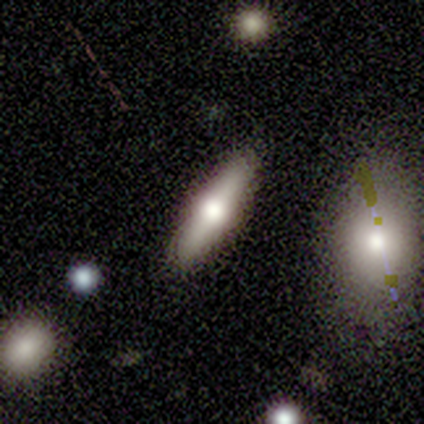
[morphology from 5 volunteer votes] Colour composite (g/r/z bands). It shows a smooth galaxy with no disk features (60%) that is cigar-shaped (100%). Merging: none (75%).